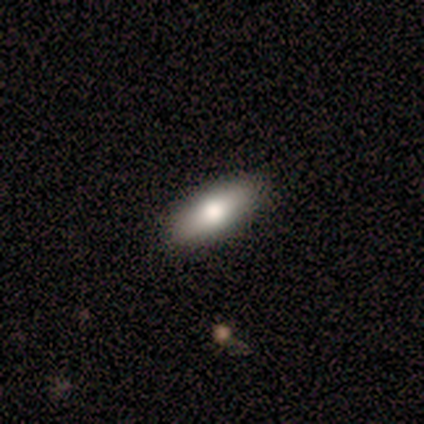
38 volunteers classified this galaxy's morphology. A smooth galaxy with no disk features (71%) that is in between round and cigar-shaped (70%). Merging: none (94%).